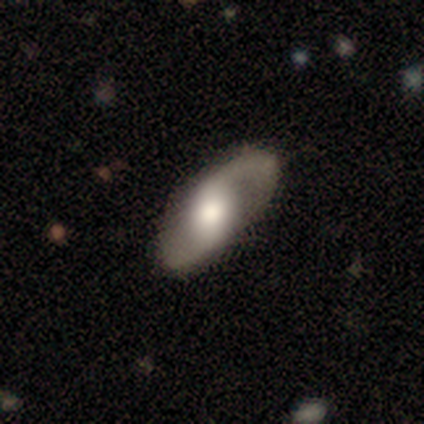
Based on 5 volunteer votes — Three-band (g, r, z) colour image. It shows a featured or disk galaxy (80%) with a weak bar (50%, tied with no), 2 (100%) medium (75%) spiral arms (100%) and a moderate central bulge (75%). Merging: none (100%).